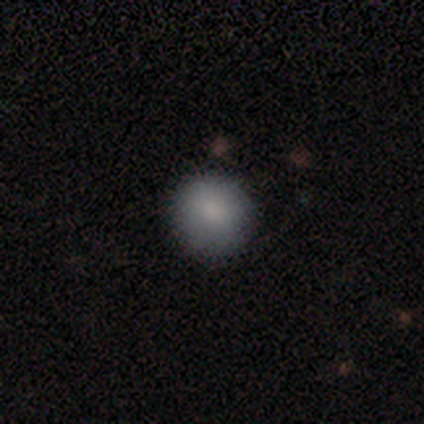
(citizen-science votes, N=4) smooth_or_featured: smooth (p=1.00)
how_rounded: round (p=1.00)
merging: none (p=1.00)